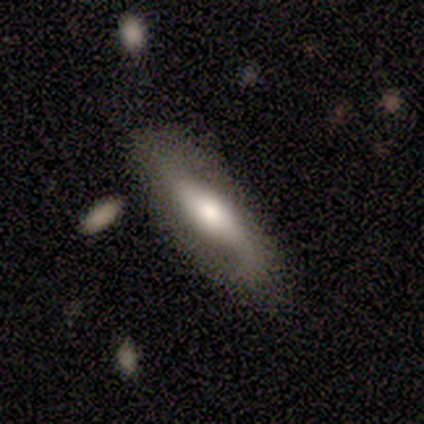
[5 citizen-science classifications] This appears to be a smooth galaxy with no disk features (60%) that is in between round and cigar-shaped (67%). Merging: none (50%).